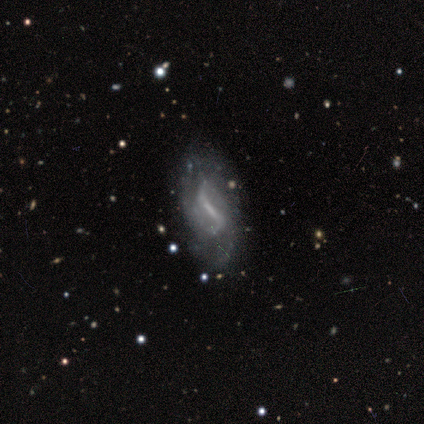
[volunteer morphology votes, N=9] smooth-or-featured: featured or disk: 89% | star or artifact: 11% | smooth: 0%
  disk-edge-on: no: 88% | yes: 12%
    bar: strong: 86% | weak: 14% | no: 0%
    has-spiral-arms: yes: 100% | no: 0%
      spiral-winding: loose: 71% | tight: 14% | medium: 14%
      spiral-arm-count: 2: 71% | can't tell: 29% | 1: 0% | 3: 0% | 4: 0% | more than 4: 0%
    bulge-size: none: 100% | dominant: 0% | large: 0% | moderate: 0% | small: 0%
  merging: none: 75% | minor disturbance: 12% | major disturbance: 12% | merger: 0%